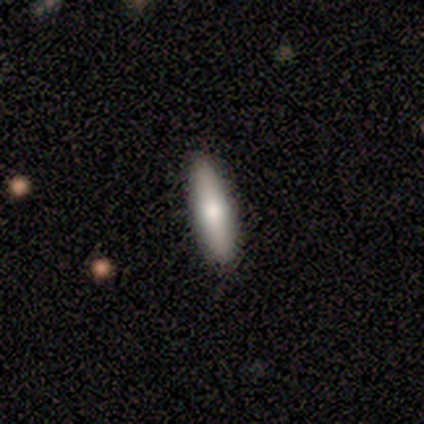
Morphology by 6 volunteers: This is clearly a smooth galaxy (100%). How rounded: likely cigar-shaped (67%). Merging: clearly none (83%).